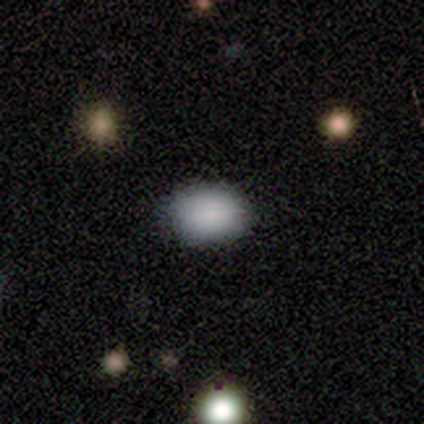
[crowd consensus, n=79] Smooth or featured? 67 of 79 (85%) said smooth. How rounded? 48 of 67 (72%) said in between. Merging? 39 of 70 (56%) said none.